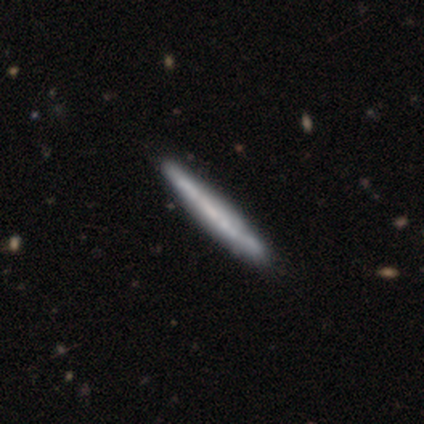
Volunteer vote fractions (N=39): Volunteers were most divided on "smooth or featured": featured or disk: 67%, smooth: 33%, star or artifact: 0%. More confident: edge-on disk — yes (88%); edge-on bulge — none (87%); merging — none (59%).